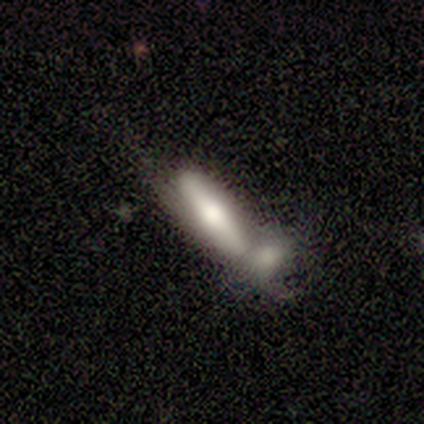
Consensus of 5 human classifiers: Smooth or featured: smooth — 100%
How rounded: cigar-shaped — 60% (in between — 40%)
Merging: merger — 80% (minor disturbance — 20%)